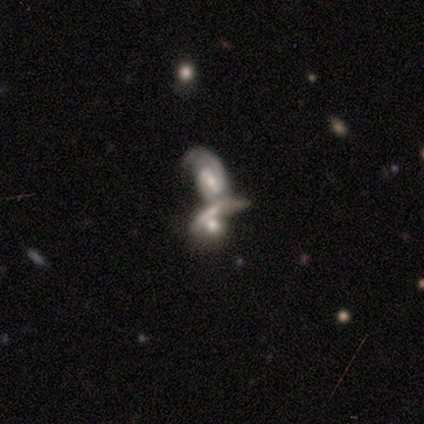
featured or disk 74%, smooth 21%, star or artifact 5%. Down the decision tree: edge-on disk — no (87%); bar — no (51%); spiral arms — yes (83%); spiral arm count — 2 (41%); spiral winding — loose (41%); bulge size — moderate (55%); merging — merger (86%).